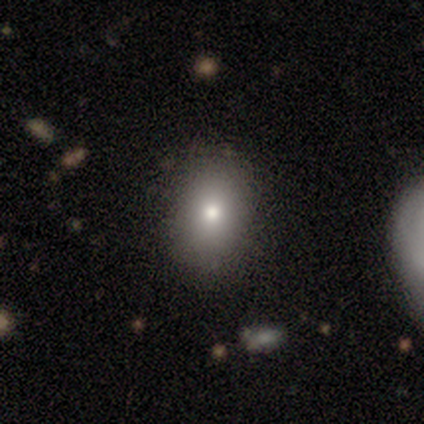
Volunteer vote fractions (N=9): This is likely a smooth galaxy (67%). How rounded: clearly in between (83%). Merging: clearly none (100%).